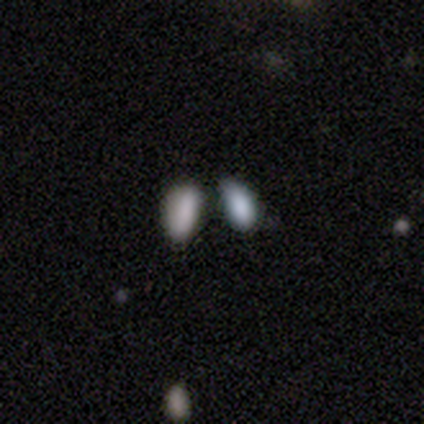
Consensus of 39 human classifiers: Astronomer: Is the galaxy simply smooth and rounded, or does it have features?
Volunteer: smooth — 74%.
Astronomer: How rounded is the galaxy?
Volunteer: in between — 83%.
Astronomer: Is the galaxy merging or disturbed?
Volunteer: merger — 50% (runner-up: none, 35%).